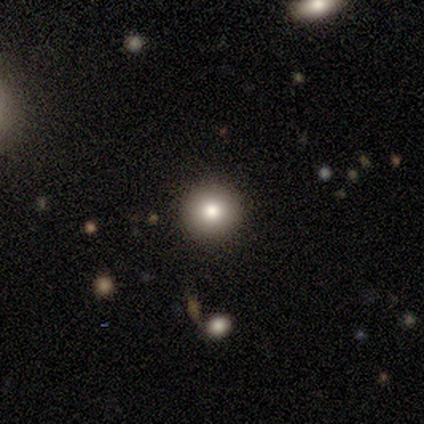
Smooth or featured? 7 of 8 (88%) said smooth. How rounded? 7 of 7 (100%) said round. Merging? 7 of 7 (100%) said none.